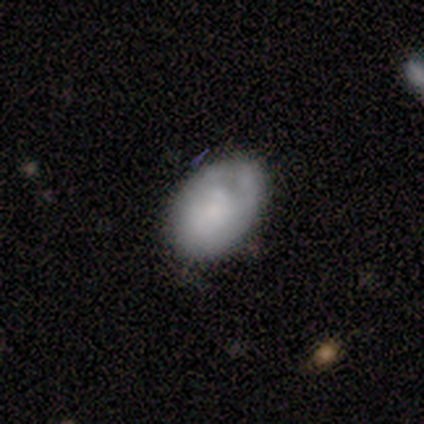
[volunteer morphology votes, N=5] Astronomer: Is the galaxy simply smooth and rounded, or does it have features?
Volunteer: smooth — 40%, tied with star or artifact at 40%.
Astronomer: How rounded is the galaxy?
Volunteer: in between — 100%.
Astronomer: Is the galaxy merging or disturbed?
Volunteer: none — 67%.